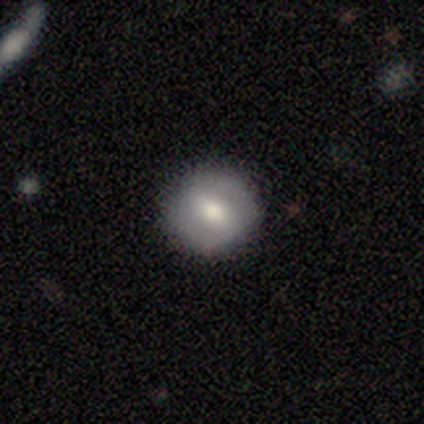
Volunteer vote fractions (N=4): This is likely a featured or disk galaxy (75%). It is clearly not viewed edge-on (100%). Bar: marginally strong (33%, tied with weak and no). Spiral arm pattern: likely yes (67%). Spiral arm count: clearly 2 (100%). Spiral winding: clearly tight (100%). Central bulge: clearly moderate (100%). Merging: clearly none (100%).